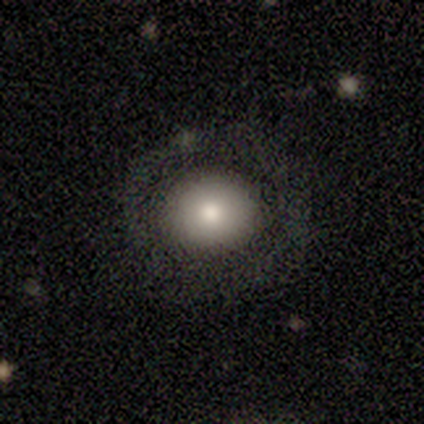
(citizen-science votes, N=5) Smooth or featured: smooth — 100%
How rounded: round — 60% (in between — 40%)
Merging: none — 80% (minor disturbance — 20%)